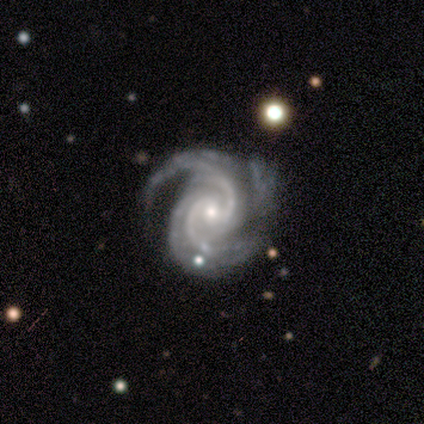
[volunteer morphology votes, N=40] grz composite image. It shows a featured or disk galaxy (95%) with a weak bar (45%), 2 (51%) medium (49%) spiral arms (97%) and a small central bulge (50%). Merging: none (31%).